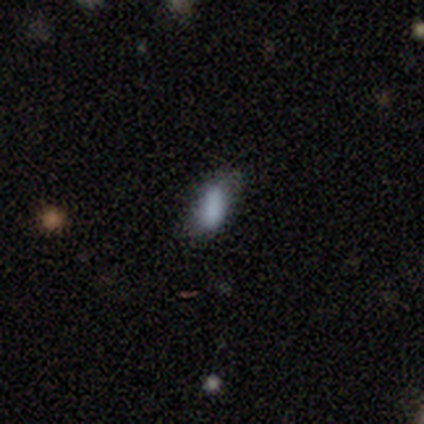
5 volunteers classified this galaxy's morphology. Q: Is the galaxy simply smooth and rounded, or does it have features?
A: smooth — 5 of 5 (100%).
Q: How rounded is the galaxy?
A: in between — 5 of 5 (100%).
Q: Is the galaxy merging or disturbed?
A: none — 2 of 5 (40%).